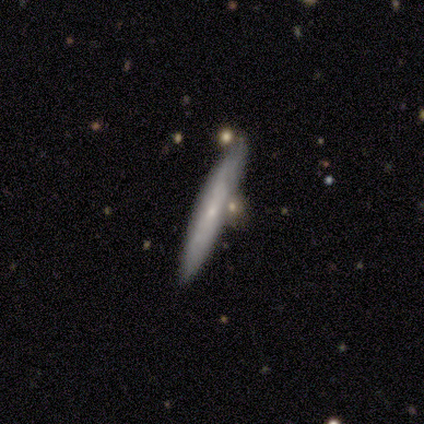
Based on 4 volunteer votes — smooth-or-featured: smooth: 50% (tied) | featured or disk: 50% (tied) | star or artifact: 0%
  how-rounded: in between: 50% (tied) | cigar-shaped: 50% (tied) | round: 0%
  merging: none: 75% | minor disturbance: 25% | major disturbance: 0% | merger: 0%